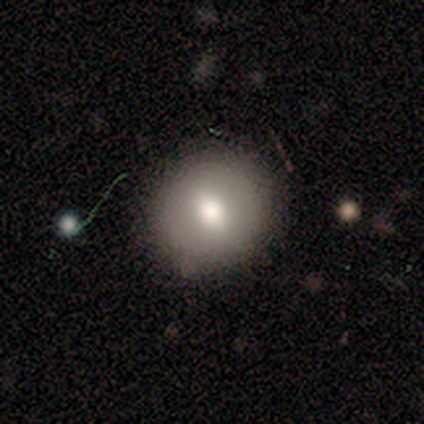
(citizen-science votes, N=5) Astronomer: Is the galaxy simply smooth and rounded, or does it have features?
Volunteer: smooth — 80%.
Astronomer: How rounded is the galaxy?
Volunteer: round — 100%.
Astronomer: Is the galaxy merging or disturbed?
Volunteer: none — 80%.